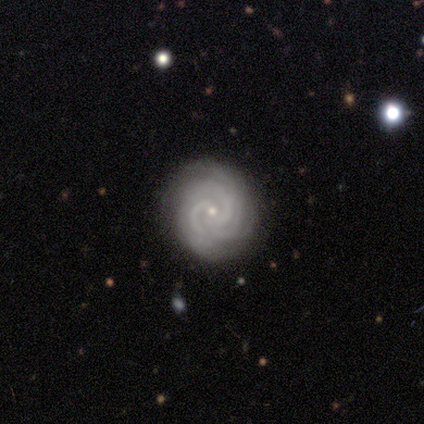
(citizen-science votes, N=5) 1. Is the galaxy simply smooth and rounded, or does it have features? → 80% featured or disk, 20% star or artifact, 0% smooth.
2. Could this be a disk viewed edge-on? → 100% no, 0% yes.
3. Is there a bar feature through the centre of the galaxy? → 100% no, 0% strong, 0% weak.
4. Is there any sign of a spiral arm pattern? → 100% yes, 0% no.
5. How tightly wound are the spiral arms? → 100% tight, 0% medium, 0% loose.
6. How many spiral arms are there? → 25% 2 (tied), 25% 3 (tied), 25% 4 (tied), 25% can't tell (tied), 0% 1, 0% more than 4.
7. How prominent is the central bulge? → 100% small, 0% dominant, 0% large, 0% moderate, 0% none.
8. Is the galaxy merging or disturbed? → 75% none, 25% minor disturbance, 0% major disturbance, 0% merger.